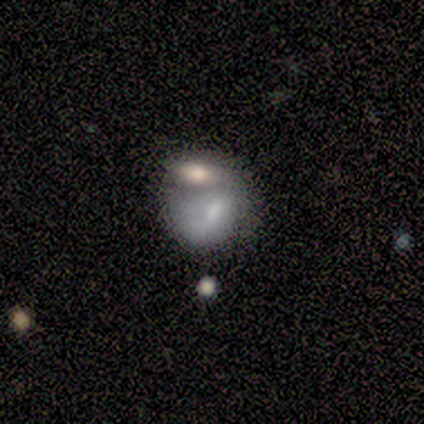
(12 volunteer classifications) Overall: smooth (67%; featured or disk 33%). How rounded: in between (62%; round 38%). Merging: merger (75%).